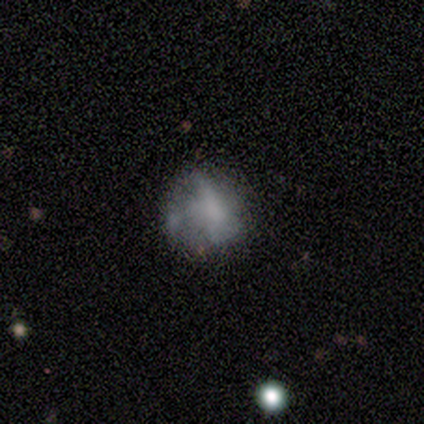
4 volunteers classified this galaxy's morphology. Volunteers were most divided on "merging": none: 50%, minor disturbance: 25%, merger: 25%, major disturbance: 0%. More confident: smooth or featured — smooth (75%); how rounded — round (67%).